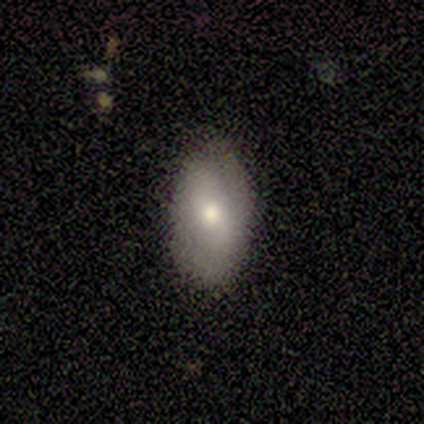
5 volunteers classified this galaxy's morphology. A smooth galaxy with no disk features (60%) that is in between round and cigar-shaped (100%).

Vote fractions:
- Smooth or featured? smooth: 60% / featured or disk: 40% / star or artifact: 0%
- How rounded? in between: 100% / round: 0% / cigar-shaped: 0%
- Merging? none: 100% / minor disturbance: 0% / major disturbance: 0% / merger: 0%